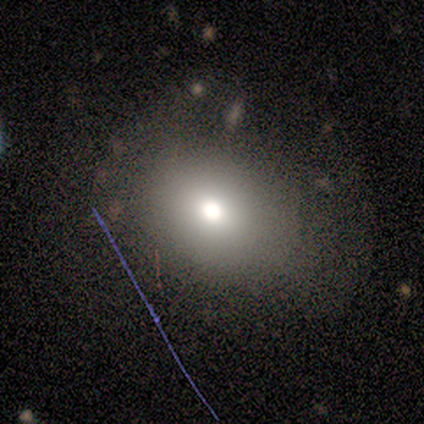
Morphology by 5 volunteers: smooth_or_featured: smooth (p=0.80) [alt: star or artifact p=0.20]
how_rounded: in between (p=0.75) [alt: round p=0.25]
merging: none (p=0.75) [alt: minor disturbance p=0.25]